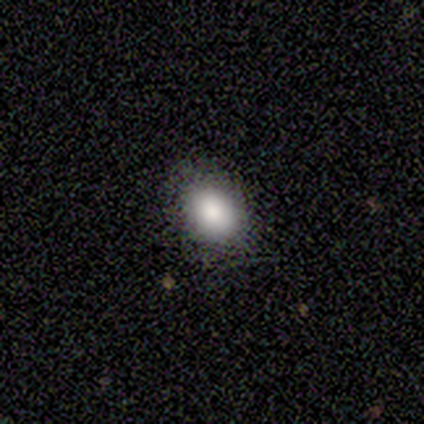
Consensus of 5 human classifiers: smooth-or-featured: smooth: 100% | featured or disk: 0% | star or artifact: 0%
  how-rounded: in between: 60% | round: 40% | cigar-shaped: 0%
  merging: none: 80% | minor disturbance: 20% | major disturbance: 0% | merger: 0%